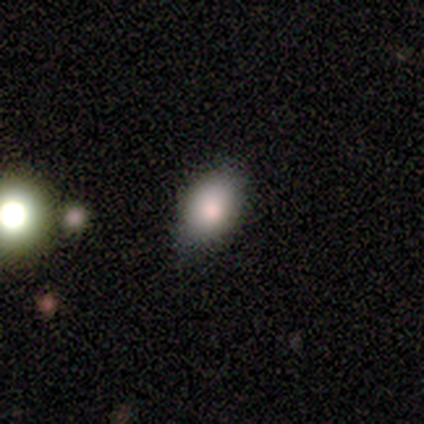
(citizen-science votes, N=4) This appears to be a smooth galaxy with no disk features (100%) that is in between round and cigar-shaped (100%). Merging: none (75%).